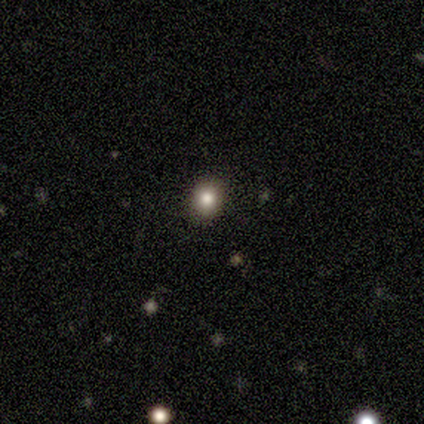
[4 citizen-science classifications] smooth-or-featured: star or artifact: 50% | smooth: 25% | featured or disk: 25%